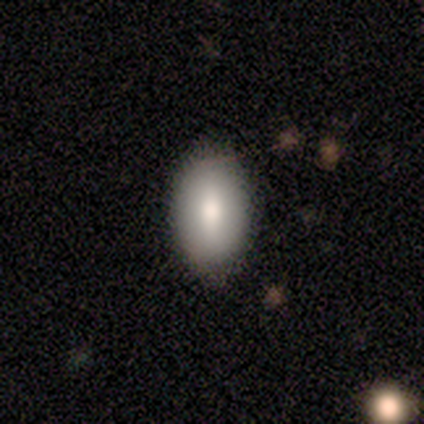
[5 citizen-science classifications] A smooth galaxy with no disk features (80%) that is in between round and cigar-shaped (75%).

Vote fractions:
- Smooth or featured? smooth: 80% / featured or disk: 20% / star or artifact: 0%
- How rounded? in between: 75% / round: 25% / cigar-shaped: 0%
- Merging? none: 100% / minor disturbance: 0% / major disturbance: 0% / merger: 0%